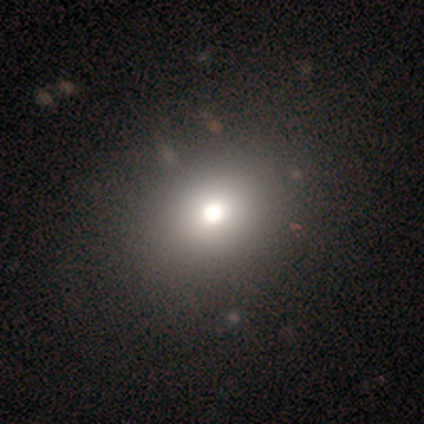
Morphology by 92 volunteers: Q: Smooth or featured?
A: smooth (61%); runner-up: star or artifact (23%)
Q: How rounded?
A: round (54%); runner-up: in between (46%)
Q: Merging?
A: none (85%); runner-up: major disturbance (10%)